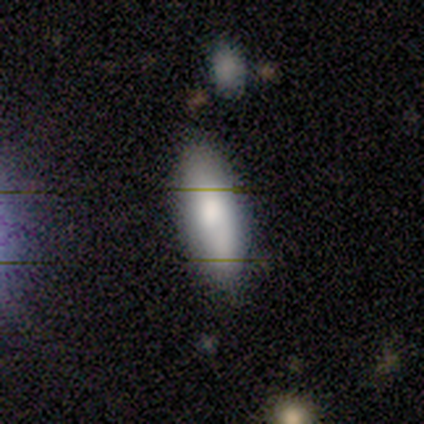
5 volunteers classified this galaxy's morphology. A smooth galaxy with no disk features (60%) that is in between round and cigar-shaped (100%). Merging: none (100%).